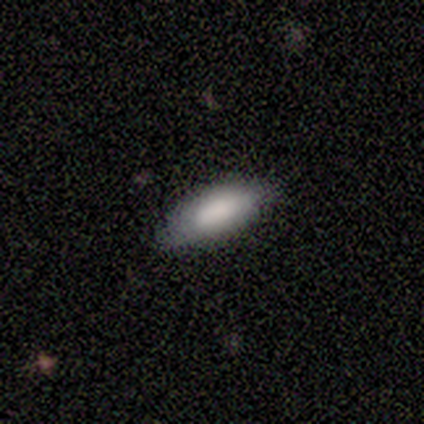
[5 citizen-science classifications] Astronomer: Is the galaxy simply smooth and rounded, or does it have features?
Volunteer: smooth — 80%.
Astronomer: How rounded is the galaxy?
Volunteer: in between — 50%.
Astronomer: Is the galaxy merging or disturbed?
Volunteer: none — 80%.